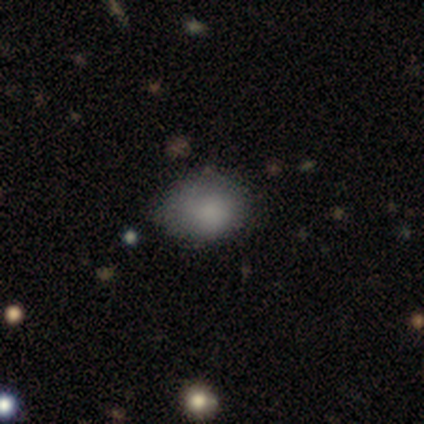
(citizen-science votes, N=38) Morphology: type=smooth (84%); roundness=in between (75%); merging=none (61%).